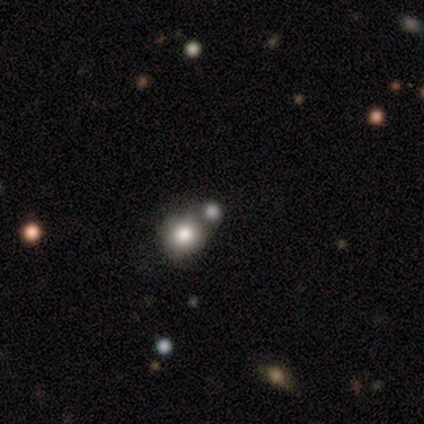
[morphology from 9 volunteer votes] Overall: smooth (89%). How rounded: round (100%). Merging: none (33%, tied with minor disturbance and merger).